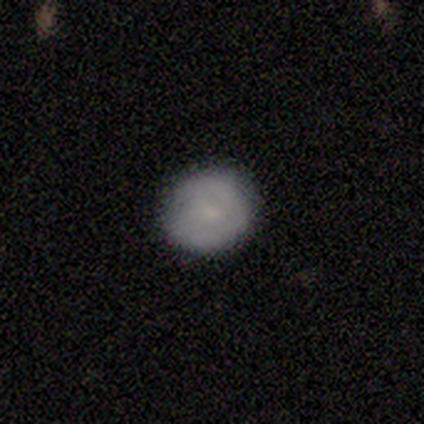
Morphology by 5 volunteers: Smooth or featured: smooth — 60% (featured or disk — 40%)
How rounded: round — 100%
Merging: none — 80% (minor disturbance — 20%)